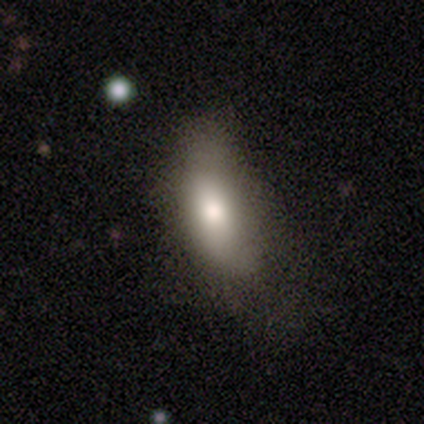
Morphology: type=smooth (76%); roundness=in between (93%); merging=none (34%).